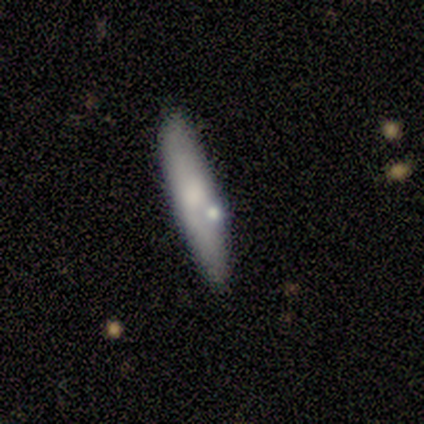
smooth-or-featured: smooth: 60% | featured or disk: 40% | star or artifact: 0%
  how-rounded: cigar-shaped: 100% | round: 0% | in between: 0%
  merging: none: 100% | minor disturbance: 0% | major disturbance: 0% | merger: 0%